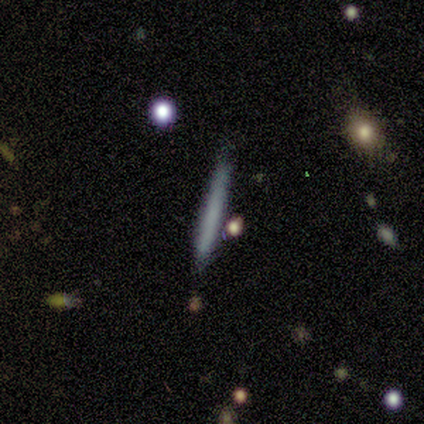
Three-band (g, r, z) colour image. It shows a smooth galaxy with no disk features (75%) that is cigar-shaped (100%). Merging: none (100%).